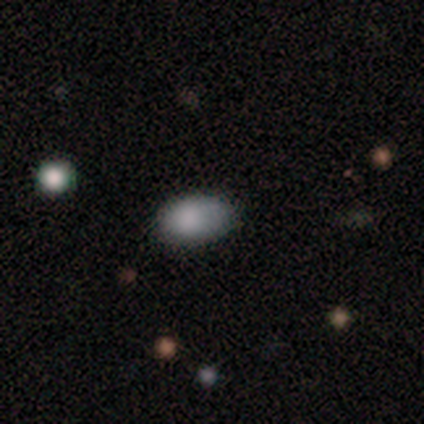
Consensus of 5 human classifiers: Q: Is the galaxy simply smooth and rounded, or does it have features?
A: smooth — 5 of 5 (100%).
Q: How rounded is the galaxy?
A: in between — 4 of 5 (80%).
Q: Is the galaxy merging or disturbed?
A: none — 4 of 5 (80%).